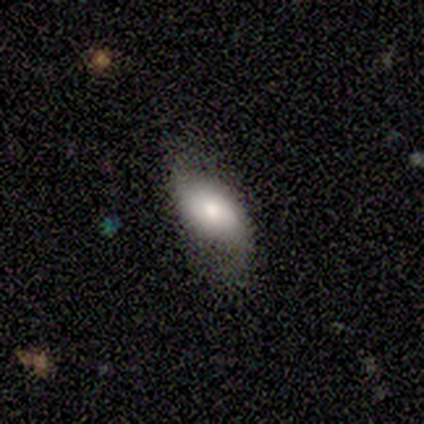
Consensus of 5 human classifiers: smooth-or-featured: smooth: 40% (tied) | star or artifact: 40% (tied) | featured or disk: 20%
  how-rounded: in between: 100% | round: 0% | cigar-shaped: 0%
  merging: none: 67% | major disturbance: 33% | minor disturbance: 0% | merger: 0%